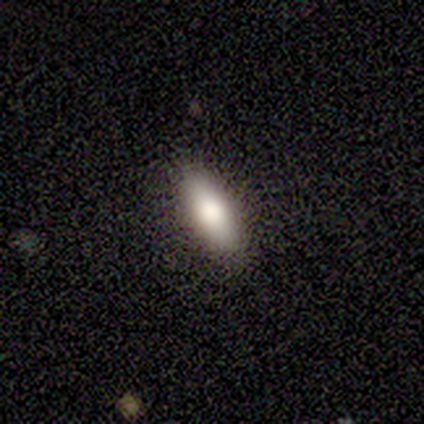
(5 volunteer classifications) smooth-or-featured: smooth: 100% | featured or disk: 0% | star or artifact: 0%
  how-rounded: in between: 80% | cigar-shaped: 20% | round: 0%
  merging: none: 80% | major disturbance: 20% | minor disturbance: 0% | merger: 0%